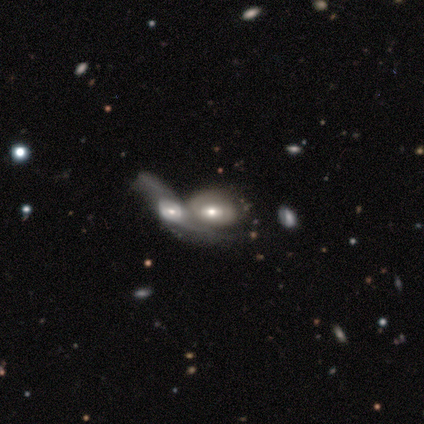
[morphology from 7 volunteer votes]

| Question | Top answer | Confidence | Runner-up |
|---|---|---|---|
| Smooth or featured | featured or disk | 57% | smooth (43%) |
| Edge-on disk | no | 100% | — |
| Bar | no | 75% | weak (25%) |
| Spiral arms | yes | 50% | tied: no (50%) |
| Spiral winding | medium | 50% | tied: loose (50%) |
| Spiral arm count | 2 | 100% | — |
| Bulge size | moderate | 50% | tied: small (50%) |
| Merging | merger | 100% | — |